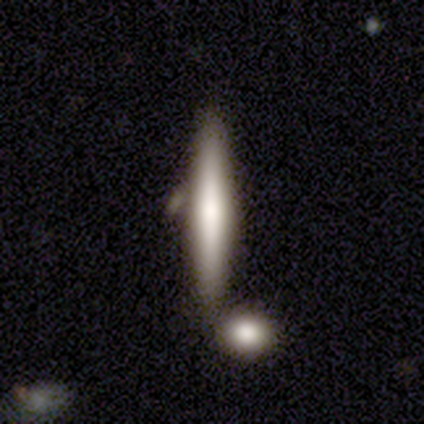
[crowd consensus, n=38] Volunteers were most divided on "smooth or featured": smooth: 58%, featured or disk: 32%, star or artifact: 11%. More confident: how rounded — cigar-shaped (95%); merging — none (71%).